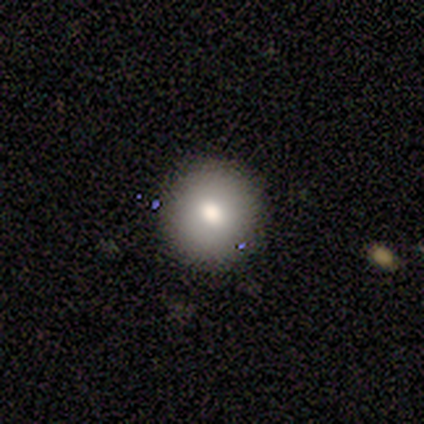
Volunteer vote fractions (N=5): Smooth or featured: smooth — 40% (tied with star or artifact — 40%)
How rounded: round — 100%
Merging: none — 100%